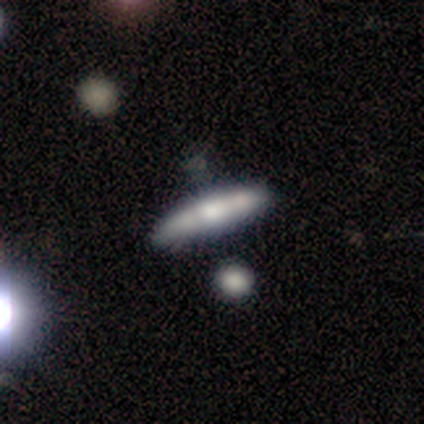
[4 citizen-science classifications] Overall: smooth (50%, tied with featured or disk). How rounded: cigar-shaped (100%). Merging: minor disturbance (75%).